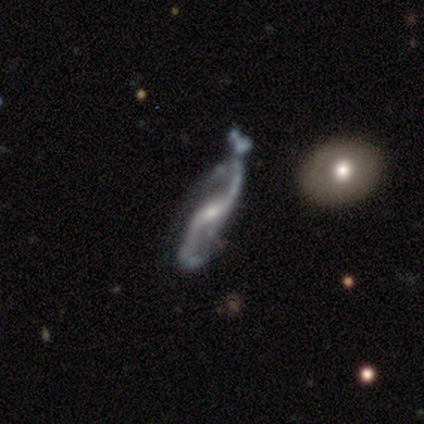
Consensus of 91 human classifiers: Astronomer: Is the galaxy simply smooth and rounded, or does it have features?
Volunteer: featured or disk — 78%.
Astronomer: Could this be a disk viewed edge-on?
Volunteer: no — 85%.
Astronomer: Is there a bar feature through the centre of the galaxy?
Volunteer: weak — 52%.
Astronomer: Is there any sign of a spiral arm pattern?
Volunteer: yes — 93%.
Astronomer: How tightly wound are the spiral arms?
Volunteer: loose — 82%.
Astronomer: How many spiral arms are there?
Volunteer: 2 — 98%.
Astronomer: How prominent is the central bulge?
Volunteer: small — 67%.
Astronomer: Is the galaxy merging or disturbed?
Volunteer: minor disturbance — 40% (runner-up: none, 25%).